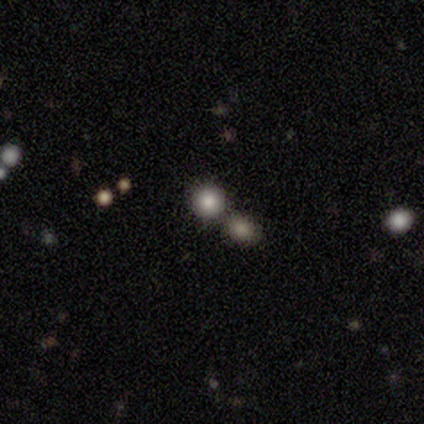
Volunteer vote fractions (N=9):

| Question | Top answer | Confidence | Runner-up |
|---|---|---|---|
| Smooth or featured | smooth | 78% | featured or disk (11%) |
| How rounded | round | 86% | in between (14%) |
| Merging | none | 75% | merger (25%) |